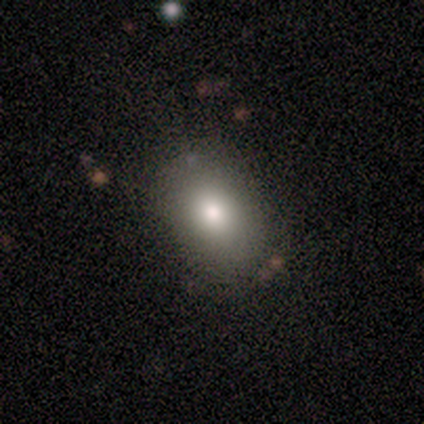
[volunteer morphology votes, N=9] Smooth or featured: smooth — 100%
How rounded: in between — 100%
Merging: none — 89% (minor disturbance — 11%)